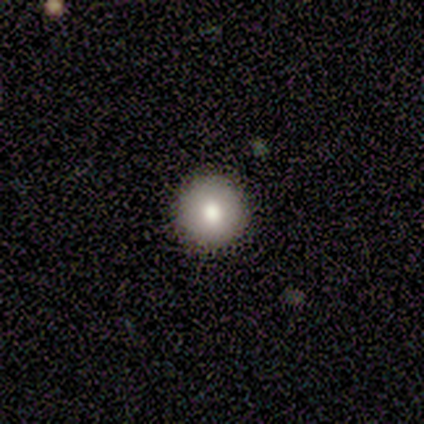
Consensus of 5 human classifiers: Volunteers were most divided on "smooth or featured": smooth: 80%, featured or disk: 20%, star or artifact: 0%. More confident: how rounded — round (100%); merging — none (80%).